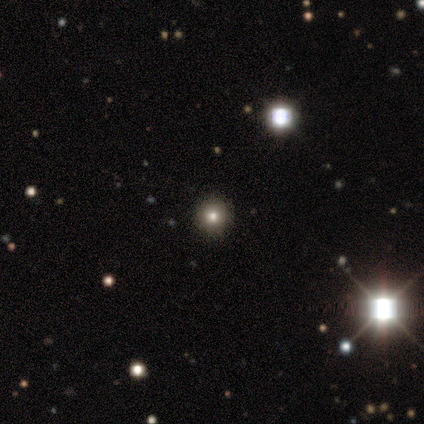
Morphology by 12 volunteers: Smooth or featured? smooth (67%)
How rounded? round (100%)
Merging? none (100%)